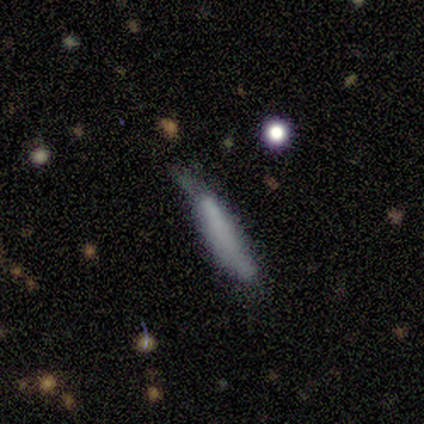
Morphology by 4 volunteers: Smooth or featured? smooth (75%)
How rounded? cigar-shaped (67%)
Merging? minor disturbance (50%)